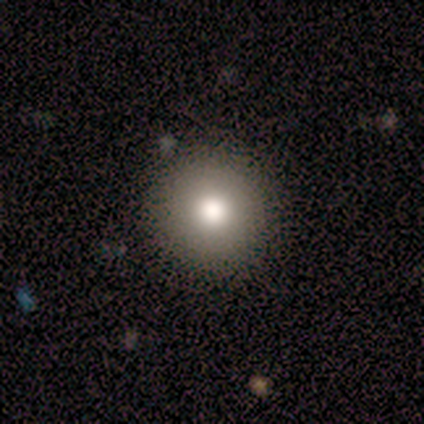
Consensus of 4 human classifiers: Smooth or featured? smooth (75%)
How rounded? round (100%)
Merging? none (100%)